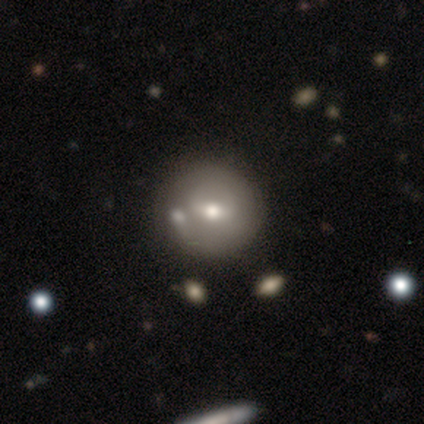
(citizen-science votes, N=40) Q: Smooth or featured?
A: smooth (60%); runner-up: featured or disk (38%)
Q: How rounded?
A: round (88%); runner-up: in between (8%)
Q: Merging?
A: none (38%); runner-up: merger (21%)